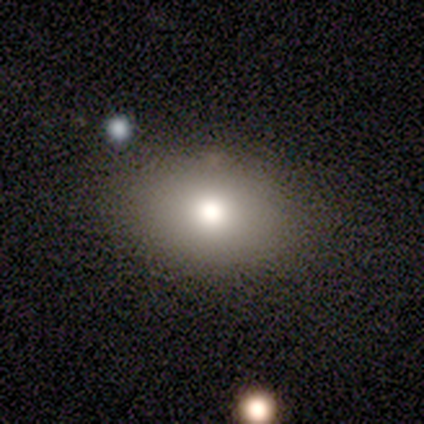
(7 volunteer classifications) Smooth or featured: smooth — 71% (star or artifact — 29%)
How rounded: in between — 80% (round — 20%)
Merging: none — 100%